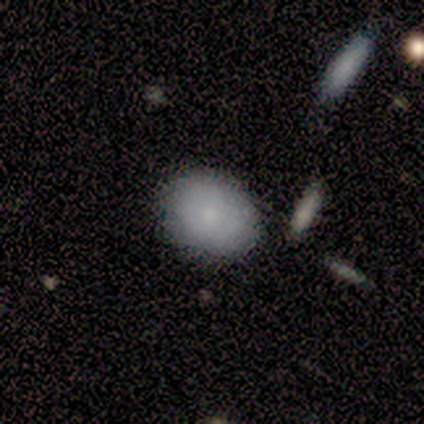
Morphology: type=smooth (75%); roundness=in between (67%); merging=none (100%).